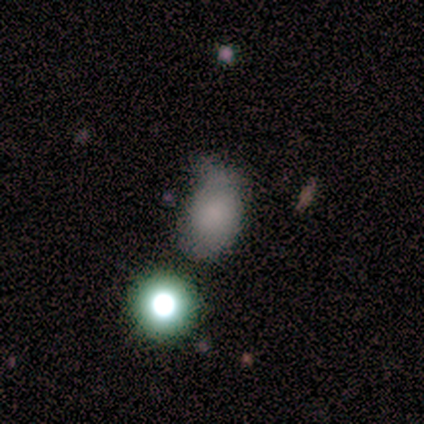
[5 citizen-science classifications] Smooth or featured? 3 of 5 (60%) said smooth. How rounded? 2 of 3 (67%) said in between. Merging? 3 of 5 (60%) said minor disturbance.